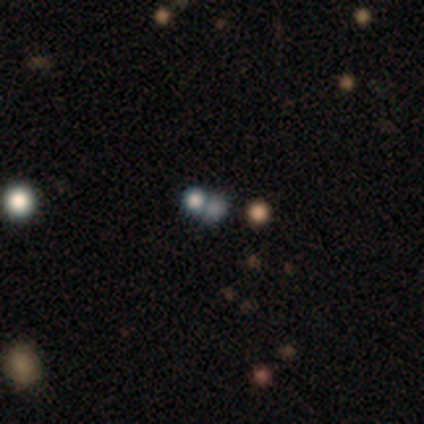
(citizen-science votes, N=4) smooth 75%, featured or disk 25%, star or artifact 0%. Down the decision tree: how rounded — round (100%); merging — none (50%, tied with merger).